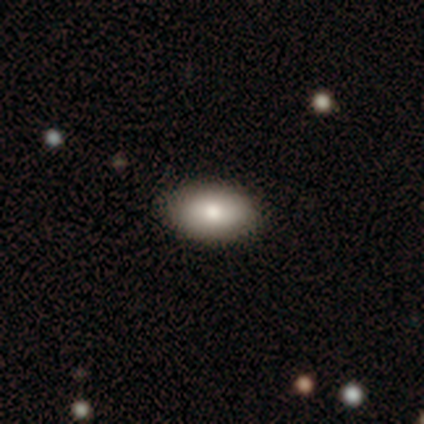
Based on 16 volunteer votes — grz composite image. It shows a smooth galaxy with no disk features (100%) that is in between round and cigar-shaped (94%). Merging: none (88%).